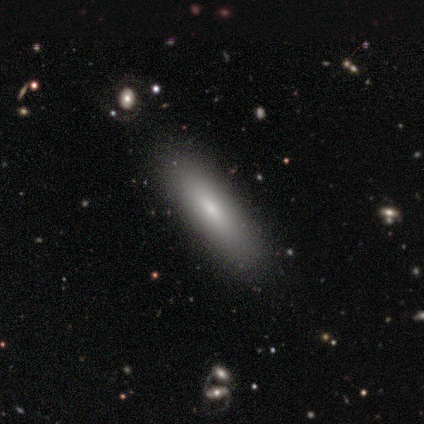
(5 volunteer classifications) Morphology: type=smooth (80%); roundness=in between (50%, tied with cigar-shaped); merging=none (100%).